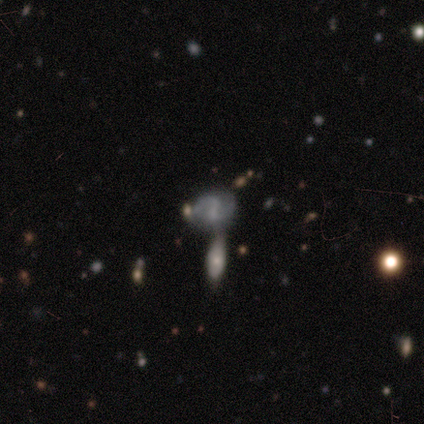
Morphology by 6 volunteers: Smooth or featured: featured or disk — 83% (smooth — 17%)
Edge-on disk: no — 100%
Bar: weak — 60% (strong — 20%)
Spiral arms: yes — 80% (no — 20%)
Spiral winding: loose — 75% (medium — 25%)
Spiral arm count: 2 — 75% (1 — 25%)
Bulge size: none — 60% (small — 40%)
Merging: none — 50% (minor disturbance — 33%)